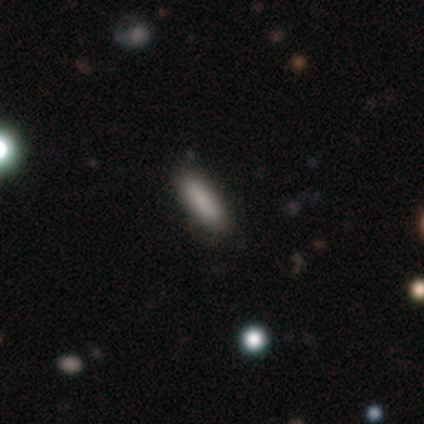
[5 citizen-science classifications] Smooth or featured? smooth (80%)
How rounded? cigar-shaped (75%)
Merging? none (100%)